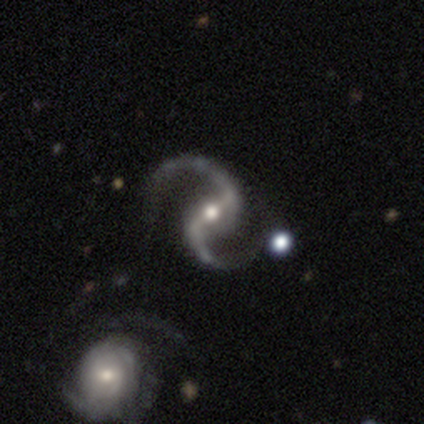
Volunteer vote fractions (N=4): smooth_or_featured: featured or disk (p=1.00)
disk_edge_on: no (p=1.00)
bar: strong (p=0.50) [alt: weak p=0.25]
has_spiral_arms: yes (p=1.00)
spiral_winding: loose (p=1.00)
spiral_arm_count: 2 (p=1.00)
bulge_size: moderate (p=0.75) [alt: small p=0.25]
merging: none (p=0.50) [tied with: minor disturbance p=0.50]